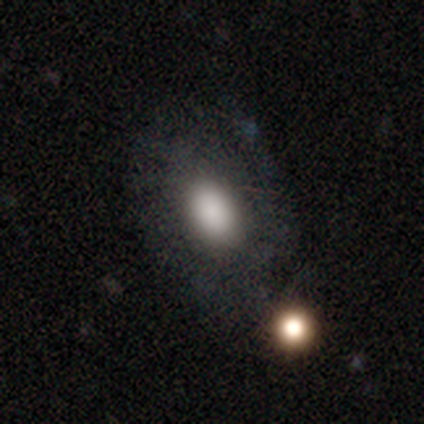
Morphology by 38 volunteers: Smooth or featured: smooth — 63% (featured or disk — 29%)
How rounded: in between — 96% (round — 4%)
Merging: none — 66% (major disturbance — 20%)